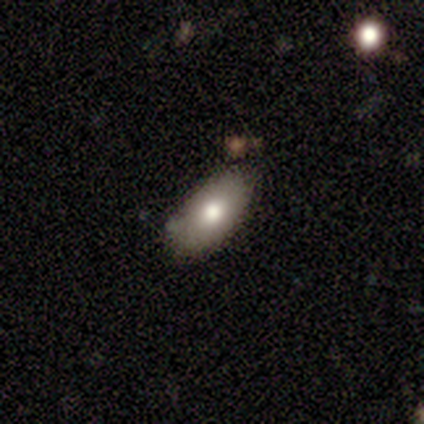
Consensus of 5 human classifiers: This appears to be a smooth galaxy with no disk features (100%) that is in between round and cigar-shaped (100%). Merging: none (80%).